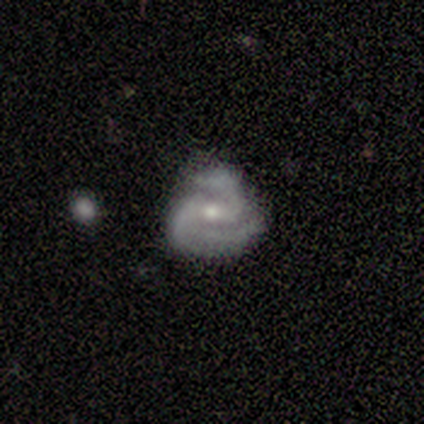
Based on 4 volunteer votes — featured or disk 100%, smooth 0%, star or artifact 0%. Down the decision tree: edge-on disk — no (100%); bar — strong (50%); spiral arms — yes (100%); spiral arm count — 2 (50%, tied with 3); spiral winding — tight (75%); bulge size — moderate (50%, tied with small); merging — none (75%).